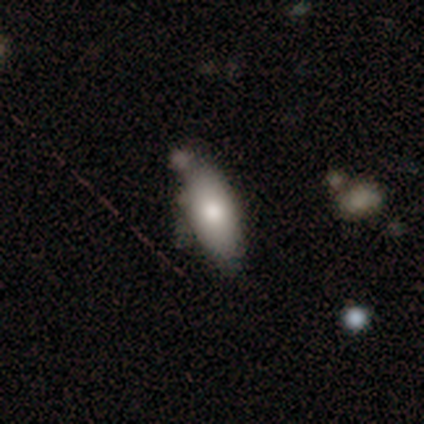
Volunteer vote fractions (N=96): Volunteers were most divided on "merging": none: 56%, minor disturbance: 29%, major disturbance: 8%, merger: 8%. More confident: how rounded — in between (82%); smooth or featured — smooth (68%).